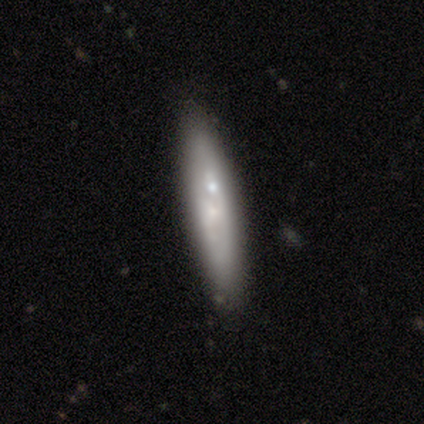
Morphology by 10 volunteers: A smooth galaxy with no disk features (60%) that is cigar-shaped (83%). Merging: none (78%).